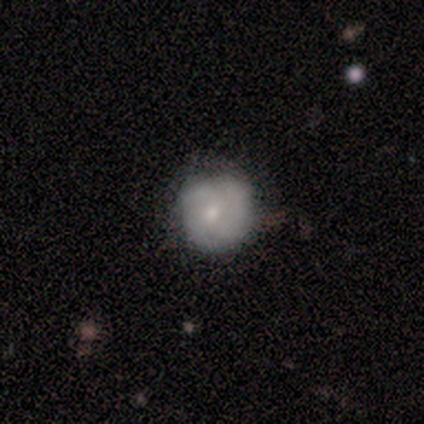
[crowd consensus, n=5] Q: Smooth or featured?
A: smooth (60%); runner-up: featured or disk (20%)
Q: How rounded?
A: round (100%)
Q: Merging?
A: none (50%); tied with: minor disturbance (50%)